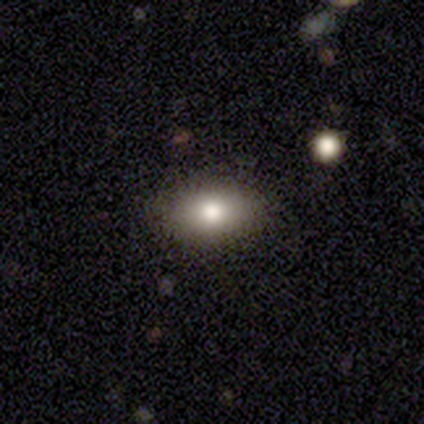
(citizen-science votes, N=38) A smooth galaxy with no disk features (71%) that is in between round and cigar-shaped (74%).

Vote fractions:
- Smooth or featured? smooth: 71% / featured or disk: 16% / star or artifact: 13%
- How rounded? in between: 74% / round: 15% / cigar-shaped: 11%
- Merging? none: 79% / minor disturbance: 18% / major disturbance: 3% / merger: 0%